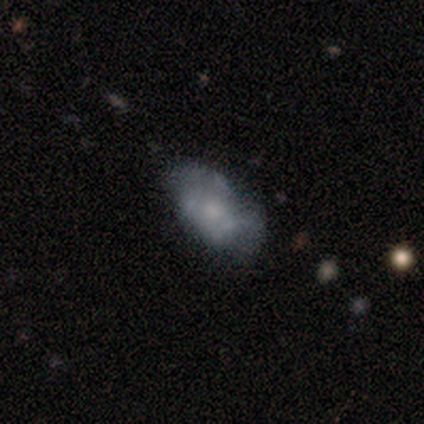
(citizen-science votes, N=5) Smooth or featured: featured or disk — 80% (smooth — 20%)
Edge-on disk: no — 100%
Bar: no — 100%
Spiral arms: no — 75% (yes — 25%)
Bulge size: moderate — 50% (tied with small — 50%)
Merging: none — 40% (tied with minor disturbance — 40%)